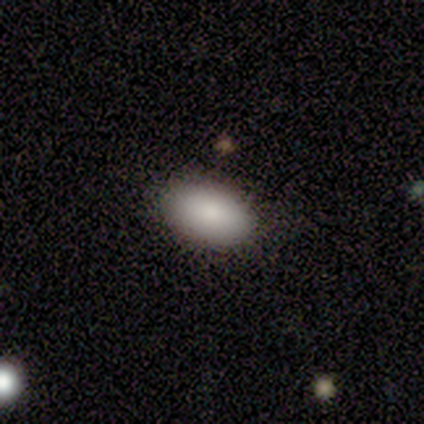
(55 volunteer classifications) smooth-or-featured: smooth: 91% | featured or disk: 5% | star or artifact: 4%
  how-rounded: in between: 94% | round: 6% | cigar-shaped: 0%
  merging: none: 96% | minor disturbance: 4% | major disturbance: 0% | merger: 0%